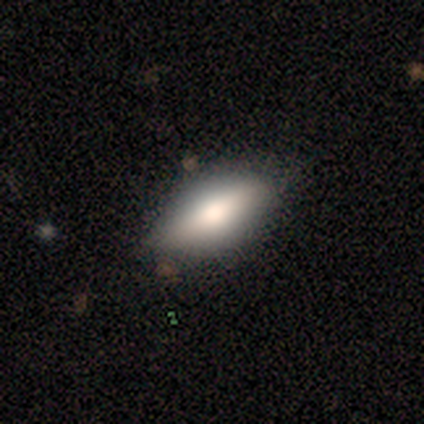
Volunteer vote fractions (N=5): Smooth or featured: smooth — 60% (featured or disk — 40%)
How rounded: in between — 67% (cigar-shaped — 33%)
Merging: none — 80% (minor disturbance — 20%)